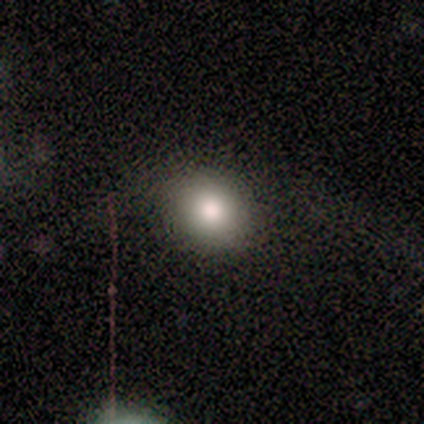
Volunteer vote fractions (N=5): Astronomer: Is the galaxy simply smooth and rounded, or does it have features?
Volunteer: smooth — 80%.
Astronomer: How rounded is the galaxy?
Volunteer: round — 75%.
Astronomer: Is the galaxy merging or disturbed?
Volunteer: none — 80%.